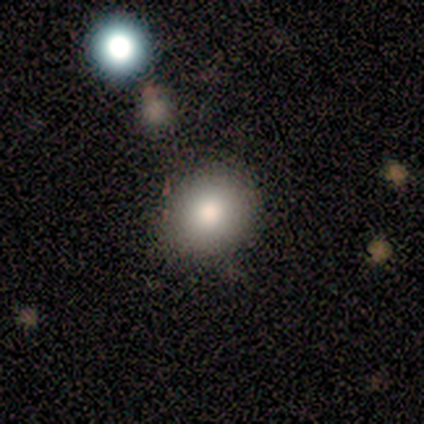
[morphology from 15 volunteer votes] Q: Smooth or featured?
A: smooth (80%); runner-up: featured or disk (13%)
Q: How rounded?
A: round (75%); runner-up: in between (25%)
Q: Merging?
A: none (93%); runner-up: minor disturbance (7%)